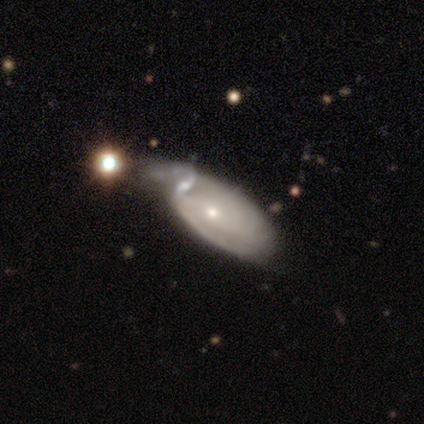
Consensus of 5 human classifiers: This appears to be a featured or disk galaxy (60%) with no bar (67%), 2 (50%, tied with can't tell) medium (100%) spiral arms (67%) and a small central bulge (67%). Merging: none (50%).